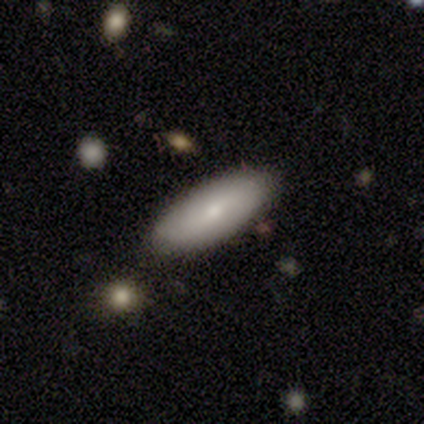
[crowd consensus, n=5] Morphology: type=smooth (80%); roundness=in between (100%); merging=none (100%).